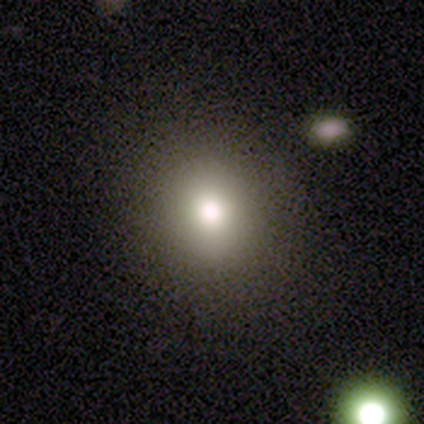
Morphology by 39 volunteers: Smooth or featured?
  - smooth: 72% *
  - featured or disk: 15%
  - star or artifact: 13%
How rounded?
  - round: 86% *
  - in between: 14%
  - cigar-shaped: 0%
Merging?
  - none: 88% *
  - minor disturbance: 6%
  - major disturbance: 6%
  - merger: 0%